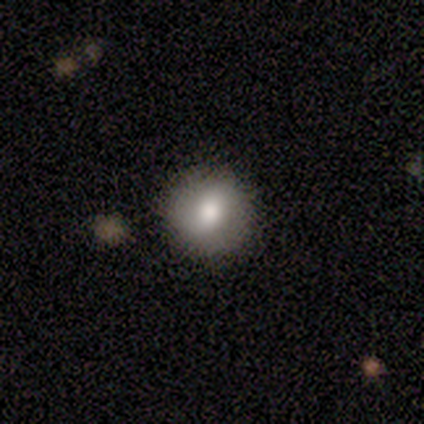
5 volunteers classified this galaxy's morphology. This appears to be a smooth galaxy with no disk features (40%, tied with featured or disk) that is round (100%). Merging: none (50%).